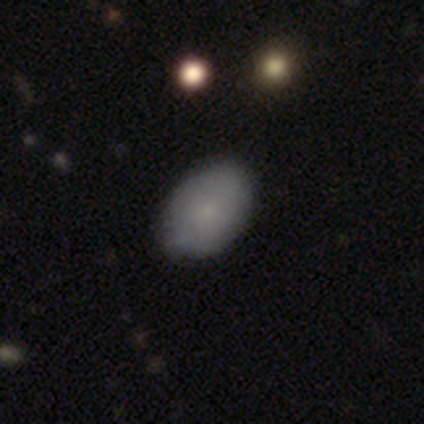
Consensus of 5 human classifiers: smooth 100%, featured or disk 0%, star or artifact 0%. Down the decision tree: how rounded — in between (100%); merging — none (80%).